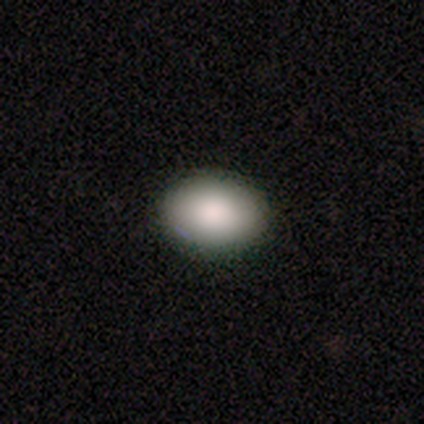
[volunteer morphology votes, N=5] Overall: smooth (80%). How rounded: round (50%, tied with in between). Merging: none (100%).